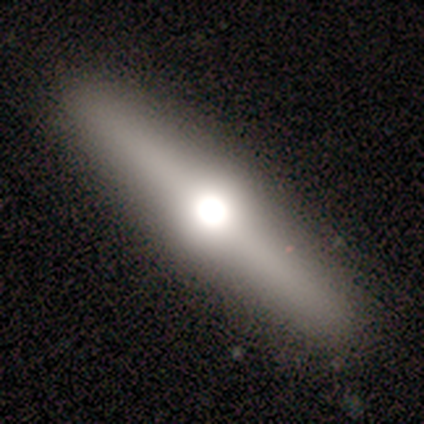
smooth_or_featured: featured or disk (p=1.00)
disk_edge_on: yes (p=1.00)
edge_on_bulge: rounded (p=1.00)
merging: none (p=0.67) [alt: minor disturbance p=0.33]